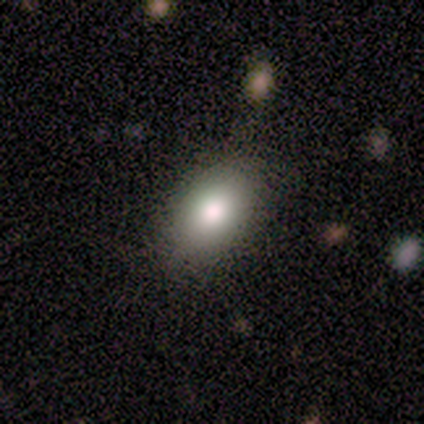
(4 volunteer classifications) This is clearly a smooth galaxy (100%). How rounded: clearly in between (100%). Merging: clearly none (100%).